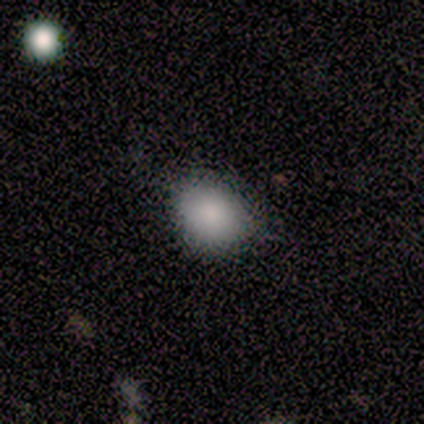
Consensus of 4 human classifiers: This is clearly a smooth galaxy (100%). How rounded: possibly round (50%, tied with in between). Merging: likely none (75%).